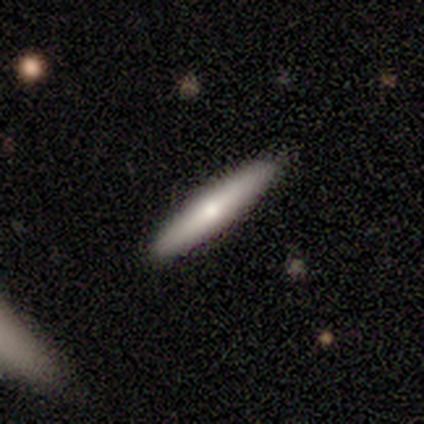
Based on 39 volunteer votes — Overall: smooth (67%; featured or disk 31%). How rounded: cigar-shaped (96%). Merging: none (89%).